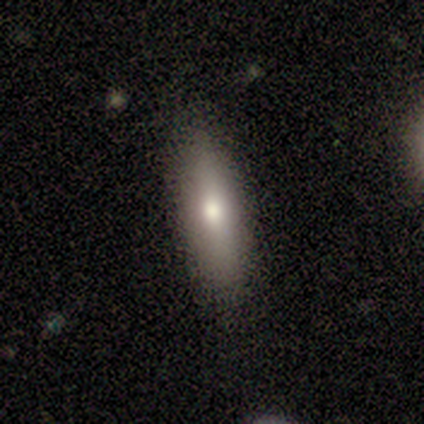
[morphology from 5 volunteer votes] This appears to be a smooth galaxy with no disk features (40%, tied with featured or disk) that is in between round and cigar-shaped (100%). Merging: none (75%).